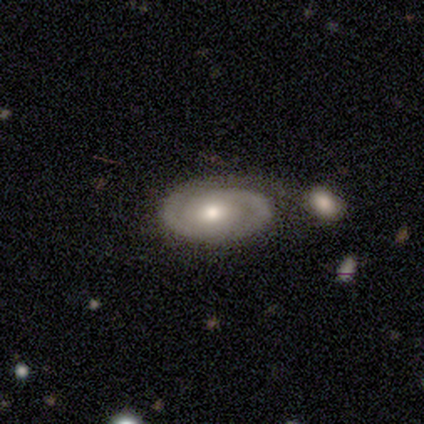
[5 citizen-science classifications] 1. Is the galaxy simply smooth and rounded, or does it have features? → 80% featured or disk, 20% smooth, 0% star or artifact.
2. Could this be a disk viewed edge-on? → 100% no, 0% yes.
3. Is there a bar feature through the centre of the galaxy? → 50% weak (tied), 50% no (tied), 0% strong.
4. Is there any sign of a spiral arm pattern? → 100% yes, 0% no.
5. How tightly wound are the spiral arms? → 75% tight, 25% medium, 0% loose.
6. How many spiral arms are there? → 50% 2, 25% 1, 25% can't tell, 0% 3, 0% 4, 0% more than 4.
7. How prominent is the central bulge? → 50% small, 25% large, 25% moderate, 0% dominant, 0% none.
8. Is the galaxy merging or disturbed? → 60% none, 20% minor disturbance, 20% major disturbance, 0% merger.